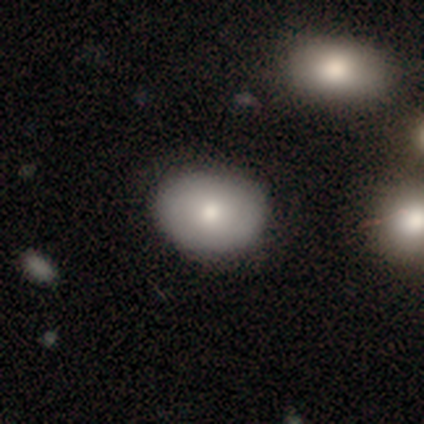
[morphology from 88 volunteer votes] type=smooth (82%); roundness=in between (68%); merging=none (88%).